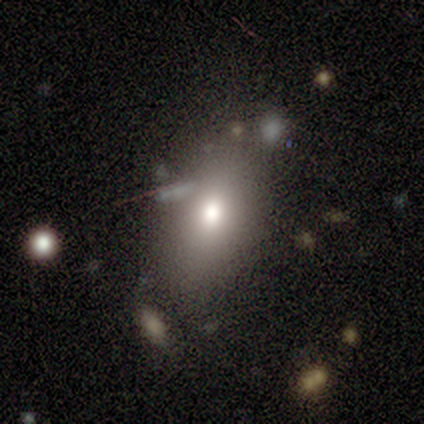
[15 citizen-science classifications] Morphology: type=smooth (87%); roundness=in between (100%); merging=none (53%).